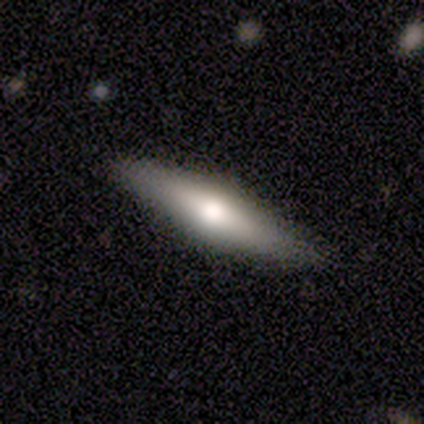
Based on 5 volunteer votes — Smooth or featured? 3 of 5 (60%) said featured or disk. Edge-on disk? 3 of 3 (100%) said yes. Edge-on bulge? 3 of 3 (100%) said rounded. Merging? 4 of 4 (100%) said none.